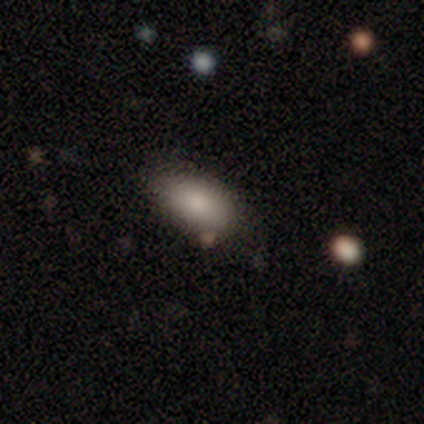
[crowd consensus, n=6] Overall: smooth (100%). How rounded: in between (83%). Merging: none (67%; minor disturbance 33%).